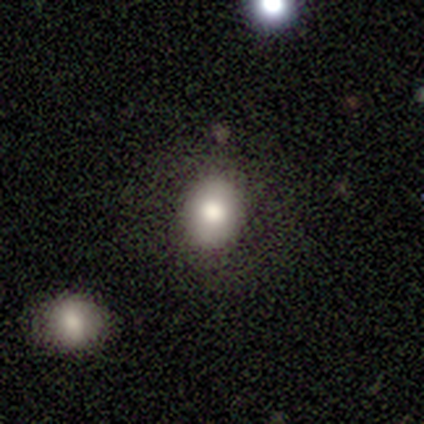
smooth_or_featured: smooth (p=0.80) [alt: featured or disk p=0.20]
how_rounded: round (p=0.50) [tied with: in between p=0.50]
merging: none (p=0.80) [alt: minor disturbance p=0.20]